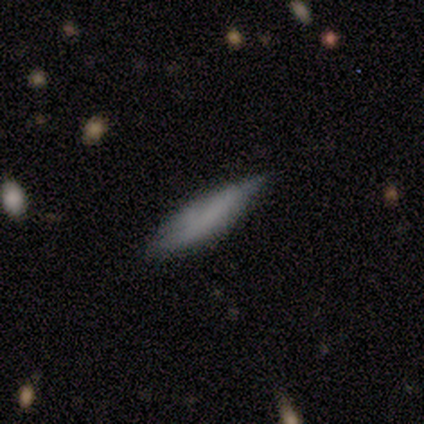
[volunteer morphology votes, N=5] Smooth or featured? smooth (80%)
How rounded? cigar-shaped (75%)
Merging? none (80%)